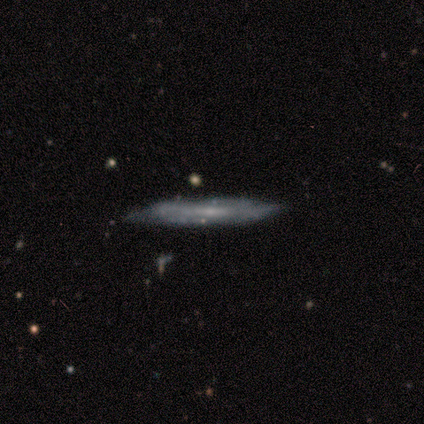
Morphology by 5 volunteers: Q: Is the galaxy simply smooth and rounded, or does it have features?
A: featured or disk — 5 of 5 (100%).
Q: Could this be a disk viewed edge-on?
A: yes — 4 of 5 (80%).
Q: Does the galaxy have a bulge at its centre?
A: none — 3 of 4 (75%).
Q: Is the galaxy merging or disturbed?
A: none — 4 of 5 (80%).